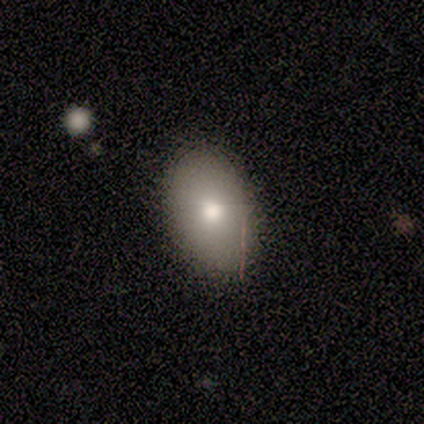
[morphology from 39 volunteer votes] smooth_or_featured: smooth (p=0.85) [alt: featured or disk p=0.10]
how_rounded: in between (p=0.88) [alt: round p=0.12]
merging: none (p=0.62) [alt: merger p=0.05]